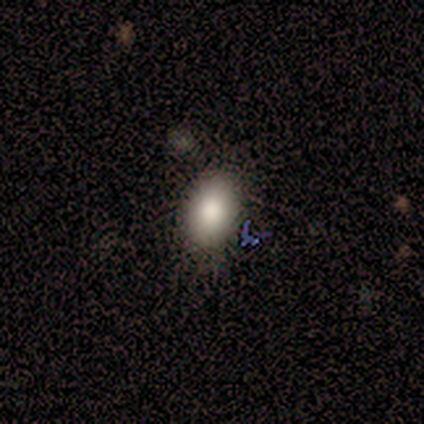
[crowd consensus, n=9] smooth-or-featured: smooth: 78% | featured or disk: 11% | star or artifact: 11%
  how-rounded: in between: 100% | round: 0% | cigar-shaped: 0%
  merging: none: 100% | minor disturbance: 0% | major disturbance: 0% | merger: 0%